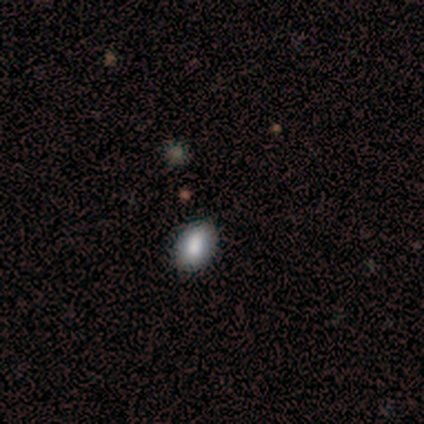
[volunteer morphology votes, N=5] smooth-or-featured: smooth: 60% | star or artifact: 40% | featured or disk: 0%
  how-rounded: in between: 100% | round: 0% | cigar-shaped: 0%
  merging: none: 67% | minor disturbance: 33% | major disturbance: 0% | merger: 0%